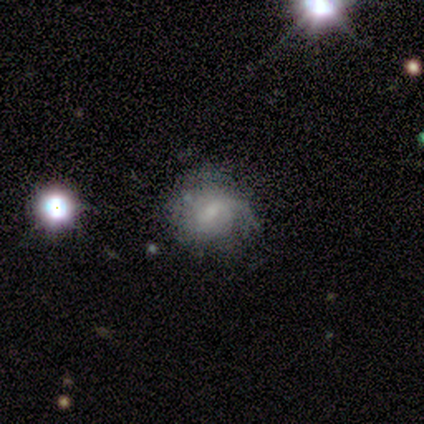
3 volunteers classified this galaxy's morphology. Overall: featured or disk (100%). Edge-on disk: no (100%). Bar: weak (67%; no 33%). Spiral arms: no (67%; yes 33%). Bulge size: moderate (33%, tied with small and none). Merging: none (100%).